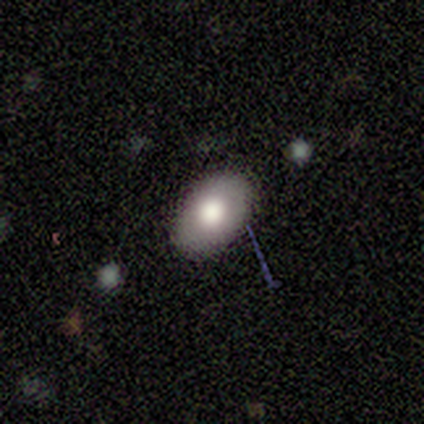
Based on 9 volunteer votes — smooth_or_featured: smooth (p=0.89) [alt: featured or disk p=0.11]
how_rounded: in between (p=1.00)
merging: none (p=0.89) [alt: minor disturbance p=0.11]